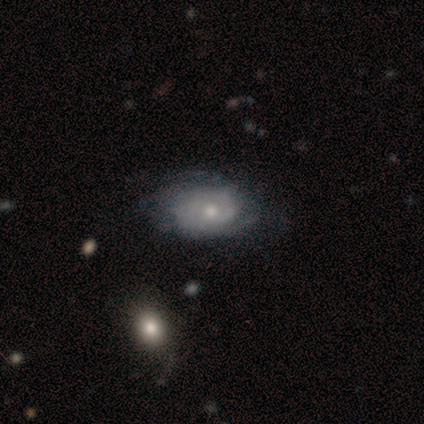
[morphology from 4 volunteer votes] Smooth or featured: smooth — 50% (tied with featured or disk — 50%)
How rounded: in between — 100%
Merging: none — 50% (minor disturbance — 25%)